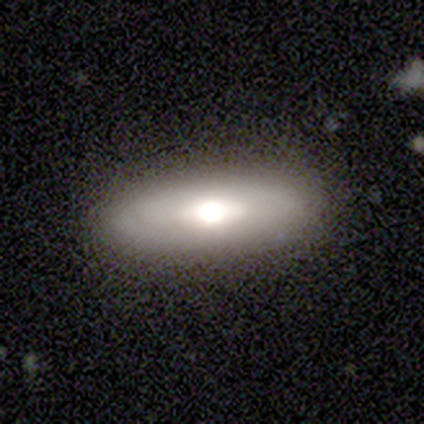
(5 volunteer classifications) A featured or disk galaxy (60%) viewed edge-on (67%) with a rounded central bulge (100%). Merging: none (80%).